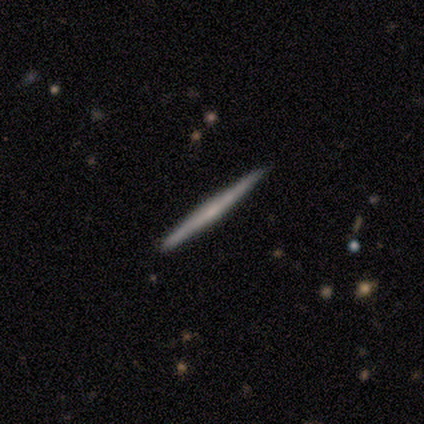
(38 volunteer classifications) A featured or disk galaxy (79%) viewed edge-on (100%) with no central bulge (60%).

Vote fractions:
- Smooth or featured? featured or disk: 79% / smooth: 21% / star or artifact: 0%
- Edge-on disk? yes: 100% / no: 0%
- Edge-on bulge? none: 60% / rounded: 40% / boxy: 0%
- Merging? none: 97% / minor disturbance: 3% / major disturbance: 0% / merger: 0%